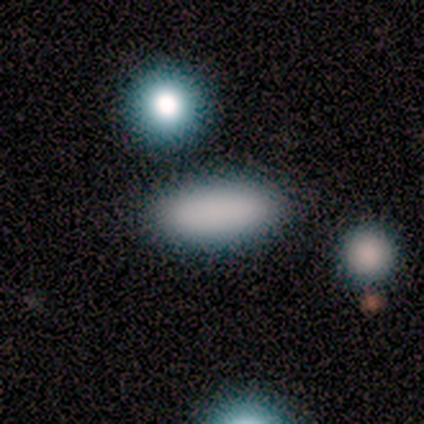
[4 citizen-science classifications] smooth_or_featured: smooth (p=0.75) [alt: star or artifact p=0.25]
how_rounded: in between (p=1.00)
merging: none (p=0.67) [alt: merger p=0.33]